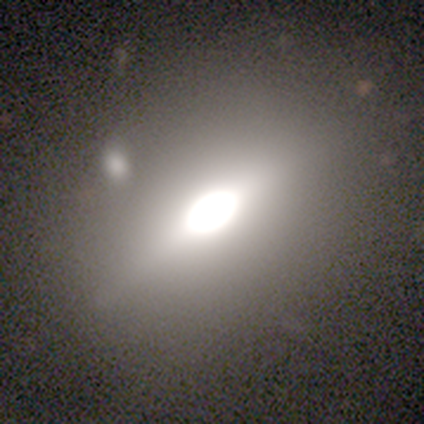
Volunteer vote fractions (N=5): A smooth galaxy with no disk features (40%, tied with star or artifact) that is in between round and cigar-shaped (100%).

Vote fractions:
- Smooth or featured? smooth: 40% (tied) / star or artifact: 40% (tied) / featured or disk: 20%
- How rounded? in between: 100% / round: 0% / cigar-shaped: 0%
- Merging? none: 100% / minor disturbance: 0% / major disturbance: 0% / merger: 0%